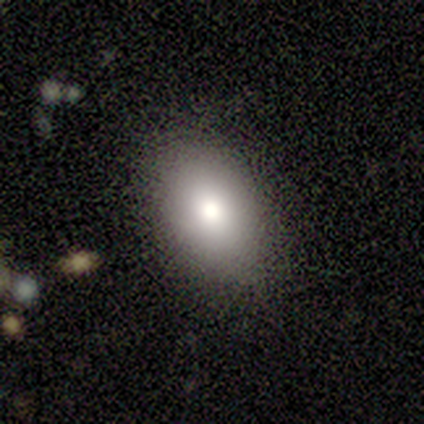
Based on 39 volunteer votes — This appears to be a smooth galaxy with no disk features (62%) that is in between round and cigar-shaped (96%). Merging: none (94%).